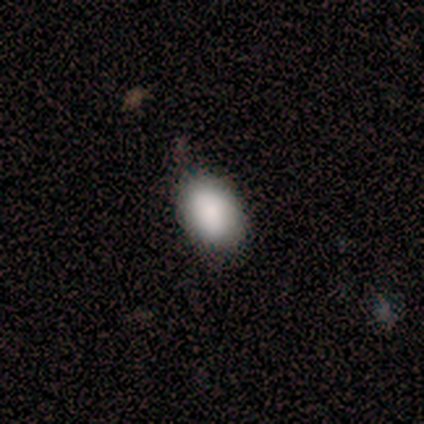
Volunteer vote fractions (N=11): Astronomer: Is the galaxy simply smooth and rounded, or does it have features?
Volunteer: smooth — 100%.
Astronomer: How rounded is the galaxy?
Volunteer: in between — 82%.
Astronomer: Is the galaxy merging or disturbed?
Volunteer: none — 91%.